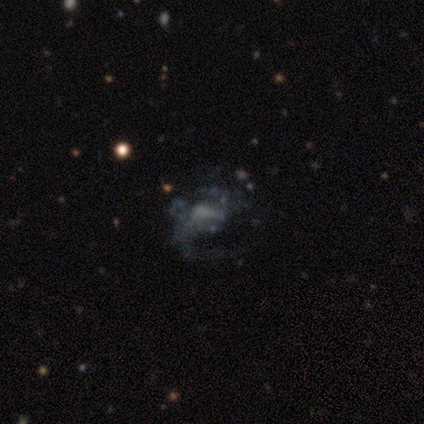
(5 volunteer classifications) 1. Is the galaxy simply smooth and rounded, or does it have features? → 80% featured or disk, 20% smooth, 0% star or artifact.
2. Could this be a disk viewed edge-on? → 100% no, 0% yes.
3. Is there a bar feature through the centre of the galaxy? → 100% no, 0% strong, 0% weak.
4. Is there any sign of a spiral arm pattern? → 100% yes, 0% no.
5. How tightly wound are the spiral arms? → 50% medium (tied), 50% loose (tied), 0% tight.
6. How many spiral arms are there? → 50% 2, 25% 1, 25% can't tell, 0% 3, 0% 4, 0% more than 4.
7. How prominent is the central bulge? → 50% moderate (tied), 50% none (tied), 0% dominant, 0% large, 0% small.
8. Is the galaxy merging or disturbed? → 40% minor disturbance (tied), 40% major disturbance (tied), 20% none, 0% merger.